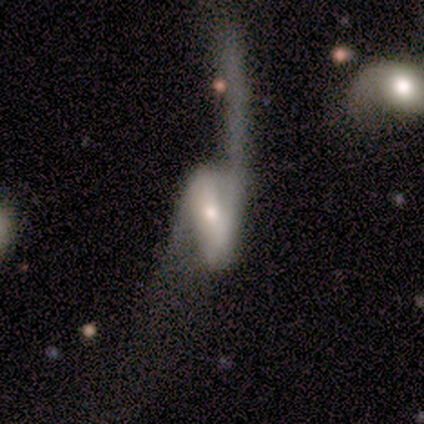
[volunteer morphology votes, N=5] Q: Smooth or featured?
A: featured or disk (80%); runner-up: smooth (20%)
Q: Edge-on disk?
A: no (100%)
Q: Bar?
A: weak (50%); runner-up: strong (25%)
Q: Spiral arms?
A: yes (100%)
Q: Spiral winding?
A: loose (100%)
Q: Spiral arm count?
A: 2 (100%)
Q: Bulge size?
A: small (75%); runner-up: moderate (25%)
Q: Merging?
A: major disturbance (80%); runner-up: minor disturbance (20%)